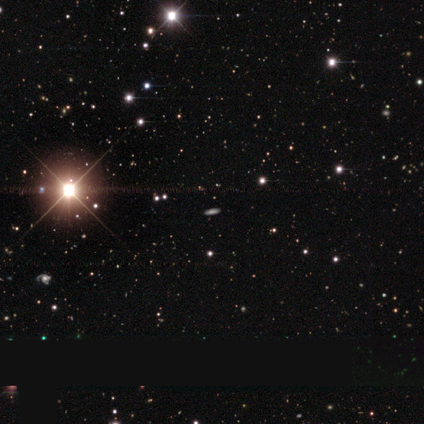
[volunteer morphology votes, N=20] A star or artifact, not a galaxy (65%).

Vote fractions:
- Smooth or featured? star or artifact: 65% / smooth: 25% / featured or disk: 10%